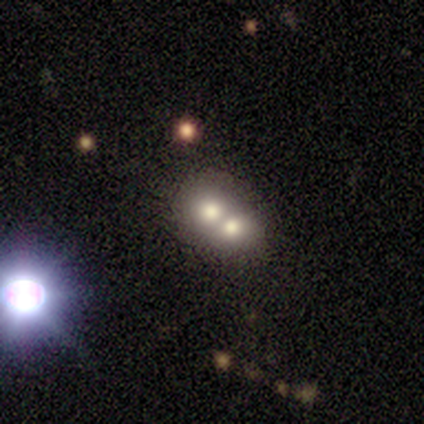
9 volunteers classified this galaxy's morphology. This appears to be a smooth galaxy with no disk features (56%) that is in between round and cigar-shaped (60%). Merging: merger (50%).